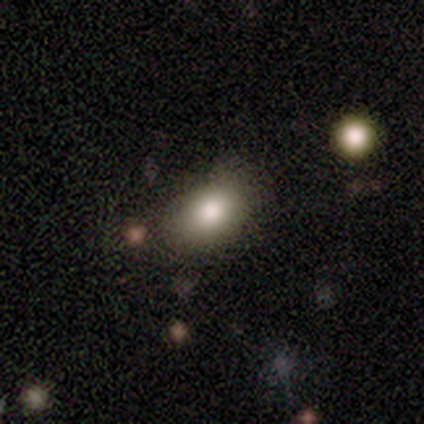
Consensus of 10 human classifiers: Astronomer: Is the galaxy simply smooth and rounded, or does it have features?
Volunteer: smooth — 90%.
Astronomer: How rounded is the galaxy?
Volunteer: in between — 100%.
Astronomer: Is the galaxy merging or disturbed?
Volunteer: none — 78%.